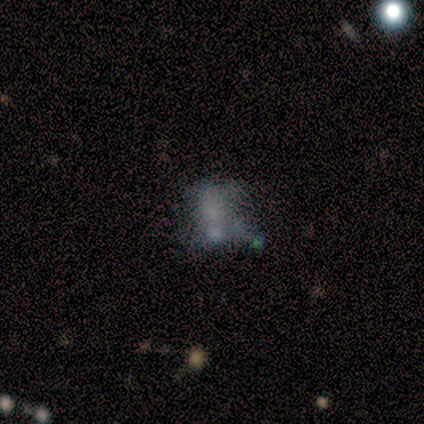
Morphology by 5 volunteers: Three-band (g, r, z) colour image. It shows a featured or disk galaxy (60%) with no bar (100%), no spiral arms (100%) and a moderate central bulge (33%, tied with small and none). Merging: none (33%, tied with minor disturbance and merger).